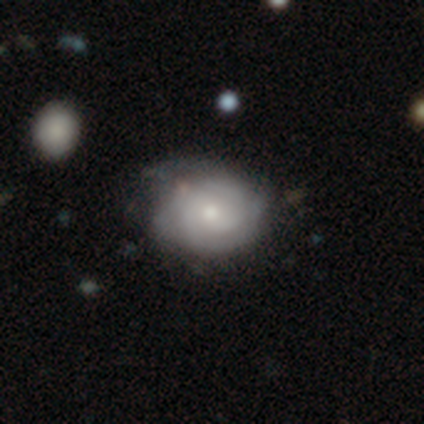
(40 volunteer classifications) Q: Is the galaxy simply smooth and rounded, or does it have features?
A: featured or disk — 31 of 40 (78%).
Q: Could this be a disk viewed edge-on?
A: no — 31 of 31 (100%).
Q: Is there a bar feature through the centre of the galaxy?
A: no — 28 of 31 (90%).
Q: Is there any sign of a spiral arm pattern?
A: yes — 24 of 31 (77%).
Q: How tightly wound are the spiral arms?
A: tight — 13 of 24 (54%).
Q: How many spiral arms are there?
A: can't tell — 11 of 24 (46%).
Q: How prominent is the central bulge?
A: moderate — 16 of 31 (52%).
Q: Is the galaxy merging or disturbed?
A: none — 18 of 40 (45%).